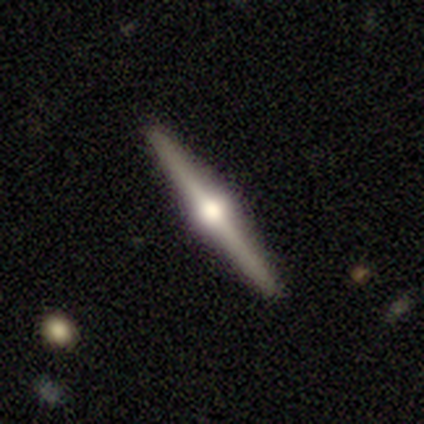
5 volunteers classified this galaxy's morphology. This appears to be a featured or disk galaxy (100%) viewed edge-on (100%) with a rounded central bulge (100%). Merging: none (80%).